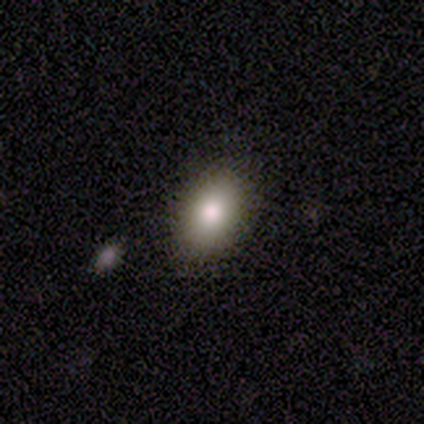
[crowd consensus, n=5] This is likely a smooth galaxy (60%). How rounded: likely in between (67%). Merging: clearly none (80%).